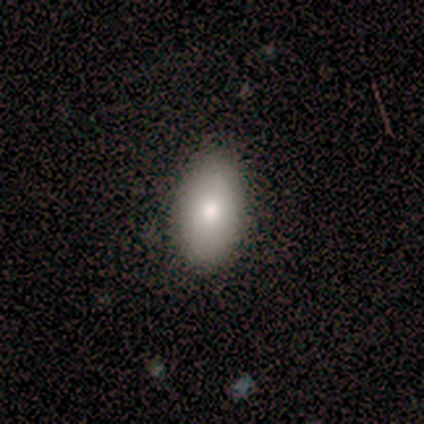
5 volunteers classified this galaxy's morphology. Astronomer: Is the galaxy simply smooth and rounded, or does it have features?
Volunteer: smooth — 60% (runner-up: featured or disk, 40%).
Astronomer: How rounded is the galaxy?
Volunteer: in between — 100%.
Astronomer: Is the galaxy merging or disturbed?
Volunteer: none — 80%.